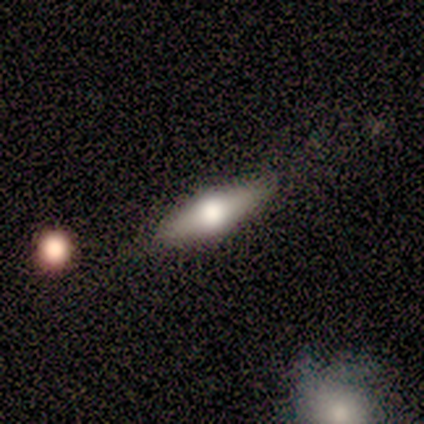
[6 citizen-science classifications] Overall: smooth (50%, tied with featured or disk). How rounded: in between (100%). Merging: none (83%).